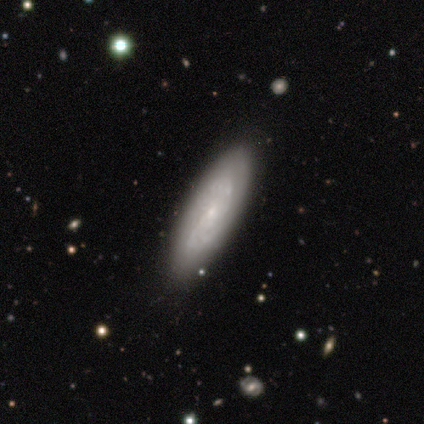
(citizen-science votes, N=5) Morphology: type=featured or disk (60%); edge-on=no (100%); bar=strong (33%, tied with weak and no); spiral arms=yes (67%); winding=tight (100%); arm count=2 (50%, tied with can't tell); bulge=small (100%); merging=none (60%).